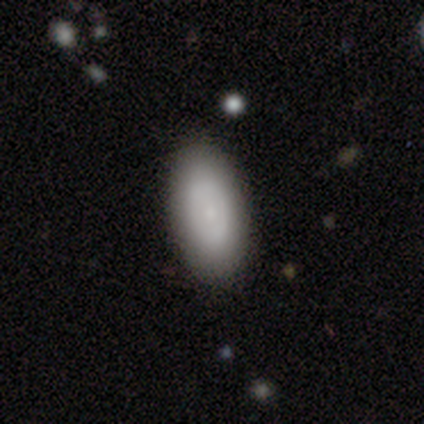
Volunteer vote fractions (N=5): Volunteers were most divided on "smooth or featured": smooth: 60%, featured or disk: 40%, star or artifact: 0%. More confident: how rounded — in between (100%); merging — none (80%).